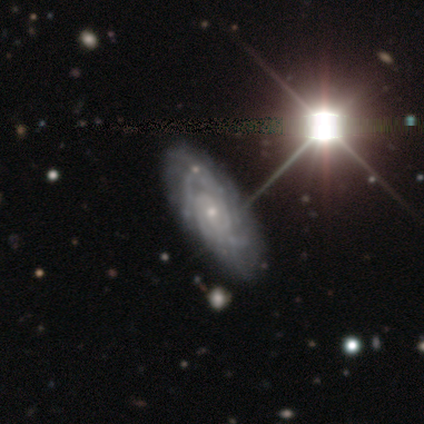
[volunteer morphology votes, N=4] This is clearly a featured or disk galaxy (100%). It is clearly not viewed edge-on (100%). Bar: likely no (75%). Spiral arm pattern: clearly yes (100%). Spiral arm count: clearly can't tell (100%). Spiral winding: clearly tight (100%). Central bulge: clearly small (100%). Merging: clearly none (100%).